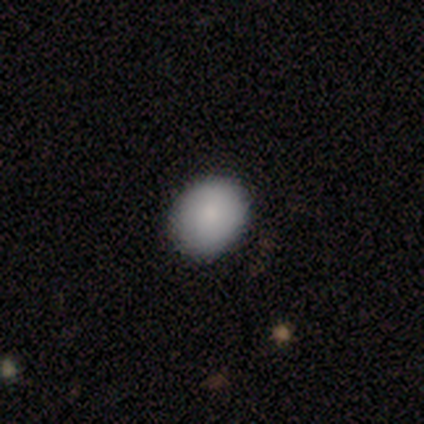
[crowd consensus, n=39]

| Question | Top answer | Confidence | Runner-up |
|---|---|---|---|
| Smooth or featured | smooth | 90% | featured or disk (8%) |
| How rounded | round | 66% | in between (34%) |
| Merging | none | 92% | minor disturbance (8%) |